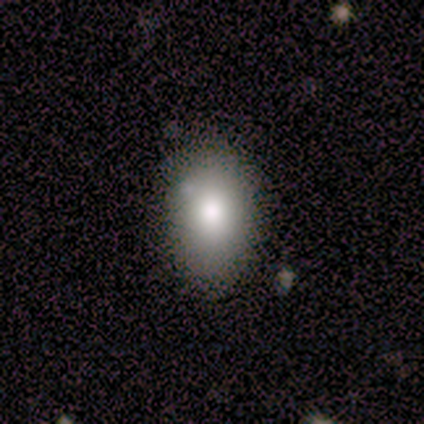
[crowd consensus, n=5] A smooth galaxy with no disk features (80%) that is in between round and cigar-shaped (75%).

Vote fractions:
- Smooth or featured? smooth: 80% / star or artifact: 20% / featured or disk: 0%
- How rounded? in between: 75% / cigar-shaped: 25% / round: 0%
- Merging? none: 75% / minor disturbance: 25% / major disturbance: 0% / merger: 0%